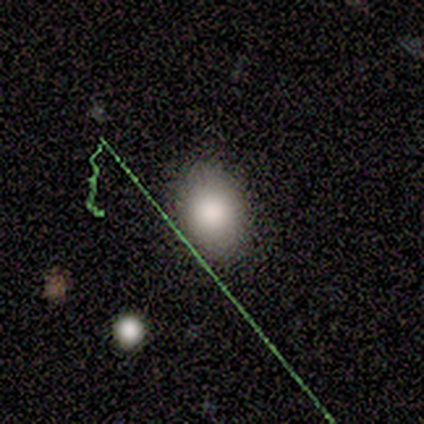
Smooth or featured?
  - smooth: 100% *
  - featured or disk: 0%
  - star or artifact: 0%
How rounded?
  - in between: 100% *
  - round: 0%
  - cigar-shaped: 0%
Merging?
  - none: 100% *
  - minor disturbance: 0%
  - major disturbance: 0%
  - merger: 0%